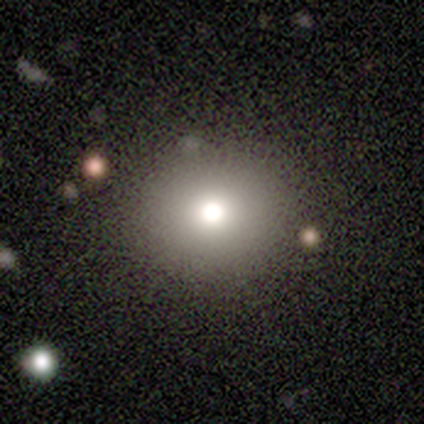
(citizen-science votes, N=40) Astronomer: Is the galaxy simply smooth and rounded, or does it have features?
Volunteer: smooth — 68%.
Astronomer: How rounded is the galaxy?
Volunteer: round — 89%.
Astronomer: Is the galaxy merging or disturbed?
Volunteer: none — 94%.